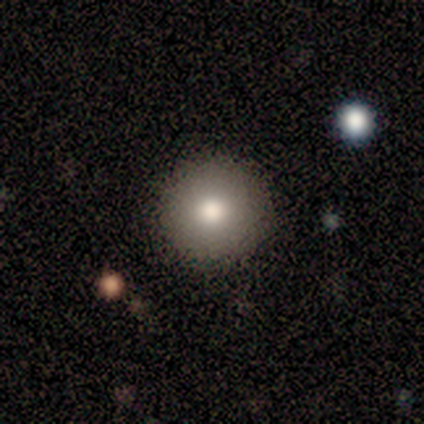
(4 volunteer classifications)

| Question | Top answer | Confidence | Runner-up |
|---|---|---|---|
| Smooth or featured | smooth | 75% | star or artifact (25%) |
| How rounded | round | 100% | — |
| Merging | none | 100% | — |